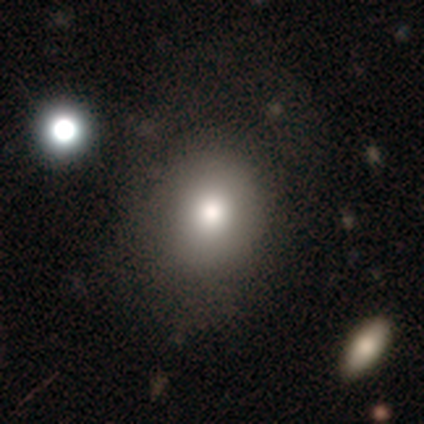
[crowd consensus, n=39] Smooth or featured? 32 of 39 (82%) said smooth. How rounded? 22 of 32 (69%) said round. Merging? 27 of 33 (82%) said none.